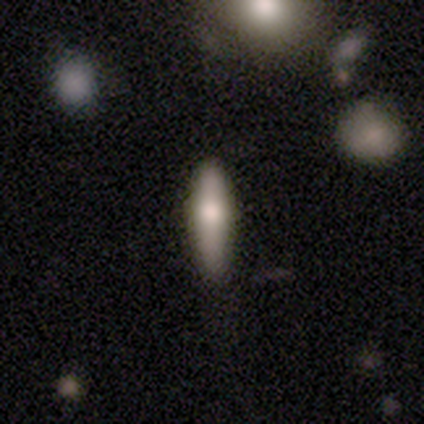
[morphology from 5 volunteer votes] Q: Smooth or featured?
A: smooth (60%); runner-up: featured or disk (40%)
Q: How rounded?
A: cigar-shaped (100%)
Q: Merging?
A: none (60%); runner-up: minor disturbance (20%)